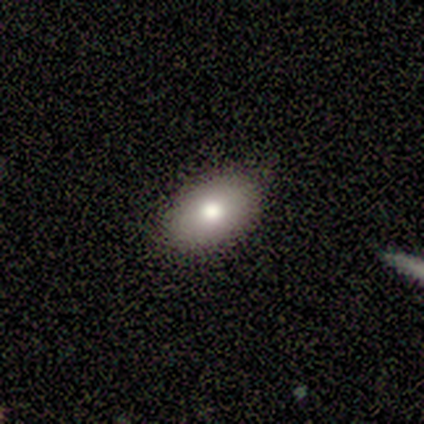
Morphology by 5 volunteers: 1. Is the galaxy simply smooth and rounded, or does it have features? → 80% smooth, 20% star or artifact, 0% featured or disk.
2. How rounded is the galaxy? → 75% in between, 25% round, 0% cigar-shaped.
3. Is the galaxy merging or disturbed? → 100% none, 0% minor disturbance, 0% major disturbance, 0% merger.